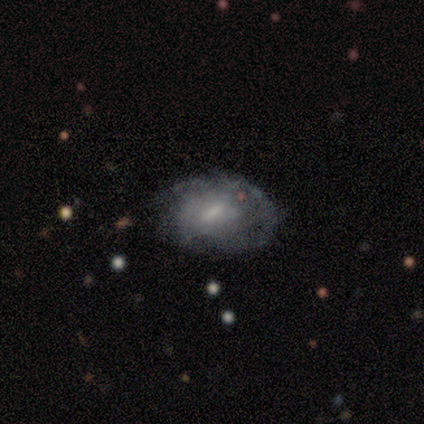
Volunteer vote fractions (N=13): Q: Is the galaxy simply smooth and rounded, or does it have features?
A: smooth — 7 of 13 (54%).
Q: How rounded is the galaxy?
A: in between — 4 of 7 (57%).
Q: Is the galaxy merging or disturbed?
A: none — 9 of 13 (69%).